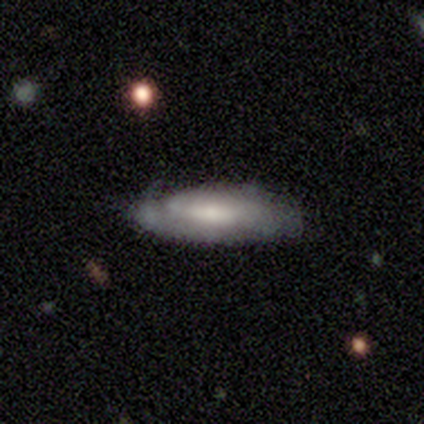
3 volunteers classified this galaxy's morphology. Smooth or featured?
  - smooth: 67% *
  - featured or disk: 33%
  - star or artifact: 0%
How rounded?
  - in between: 100% *
  - round: 0%
  - cigar-shaped: 0%
Merging?
  - none: 67% *
  - minor disturbance: 33%
  - major disturbance: 0%
  - merger: 0%